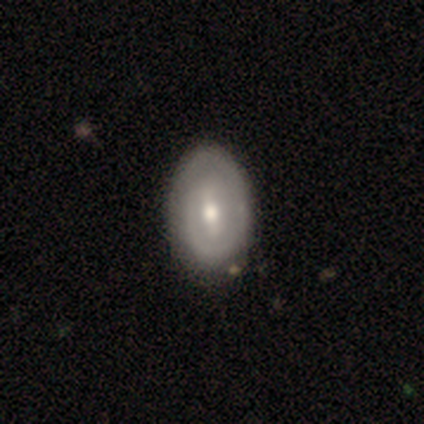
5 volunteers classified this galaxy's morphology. smooth 60%, featured or disk 20%, star or artifact 20%. Down the decision tree: how rounded — in between (67%); merging — none (75%).